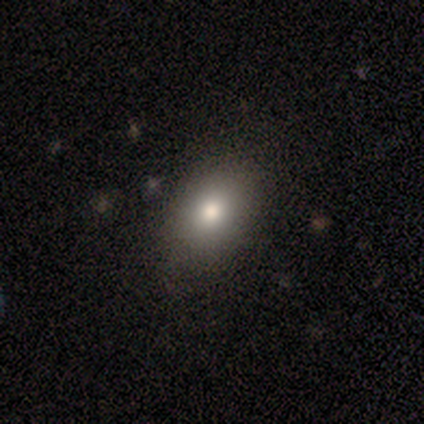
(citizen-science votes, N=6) smooth_or_featured: smooth (p=0.83) [alt: featured or disk p=0.17]
how_rounded: round (p=0.40) [tied with: in between p=0.40]
merging: none (p=1.00)